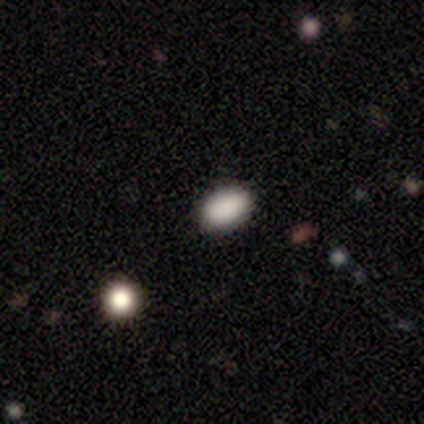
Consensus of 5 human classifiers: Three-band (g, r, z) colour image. It shows a smooth galaxy with no disk features (80%) that is in between round and cigar-shaped (75%). Merging: none (100%).